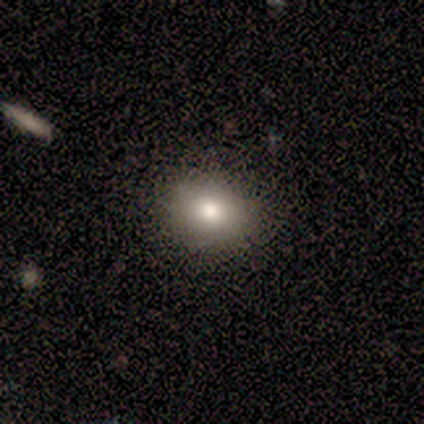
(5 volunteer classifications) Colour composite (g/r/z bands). It shows a smooth galaxy with no disk features (80%) that is in between round and cigar-shaped (75%). Merging: none (75%).